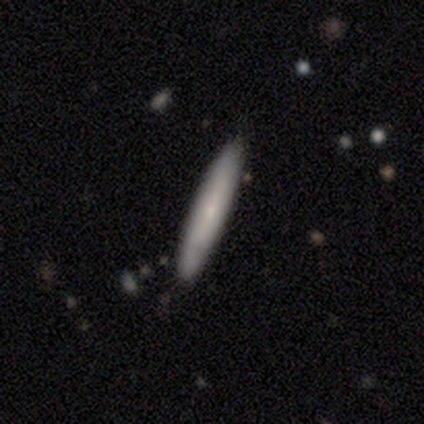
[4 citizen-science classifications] Q: Smooth or featured?
A: smooth (75%); runner-up: featured or disk (25%)
Q: How rounded?
A: cigar-shaped (100%)
Q: Merging?
A: none (100%)